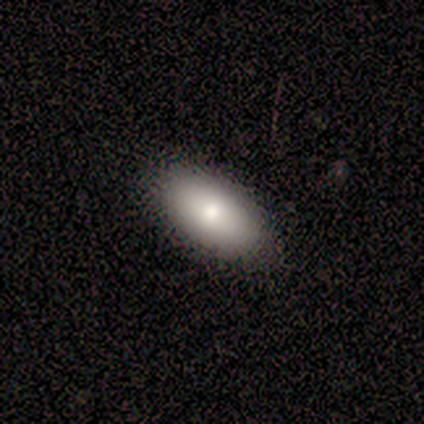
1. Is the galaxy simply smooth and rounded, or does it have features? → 100% smooth, 0% featured or disk, 0% star or artifact.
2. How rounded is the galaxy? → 75% in between, 25% cigar-shaped, 0% round.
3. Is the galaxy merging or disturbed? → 100% none, 0% minor disturbance, 0% major disturbance, 0% merger.